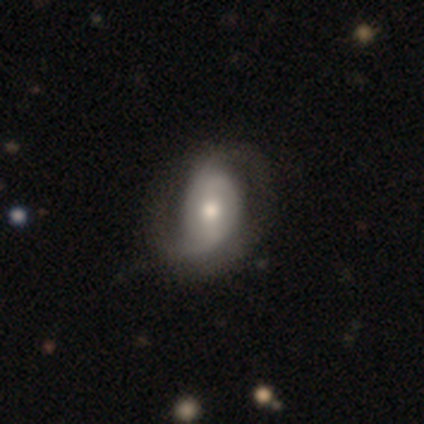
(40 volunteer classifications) smooth-or-featured: featured or disk: 70% | smooth: 22% | star or artifact: 8%
  disk-edge-on: no: 96% | yes: 4%
    bar: no: 48% | weak: 33% | strong: 19%
    has-spiral-arms: yes: 85% | no: 15%
      spiral-winding: medium: 48% | loose: 30% | tight: 22%
      spiral-arm-count: 2: 70% | can't tell: 22% | 1: 9% | 3: 0% | 4: 0% | more than 4: 0%
    bulge-size: moderate: 44% | large: 30% | small: 26% | dominant: 0% | none: 0%
  merging: none: 49% | minor disturbance: 32% | major disturbance: 19% | merger: 0%